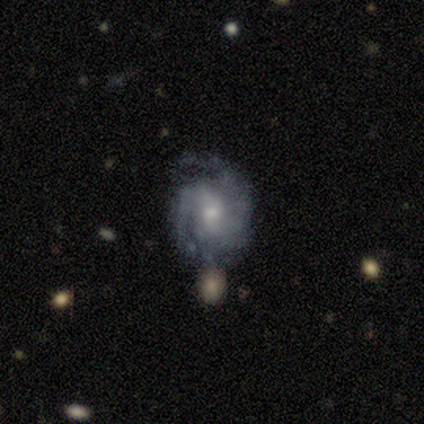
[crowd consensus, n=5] Smooth or featured?
  - featured or disk: 100% *
  - smooth: 0%
  - star or artifact: 0%
Edge-on disk?
  - no: 100% *
  - yes: 0%
Bar?
  - no: 80% *
  - weak: 20%
  - strong: 0%
Spiral arms?
  - yes: 100% *
  - no: 0%
Spiral winding?
  - tight: 60% *
  - medium: 20%
  - loose: 20%
Spiral arm count?
  - 2: 40% * (tied)
  - can't tell: 40% * (tied)
  - 3: 20%
  - 1: 0%
  - 4: 0%
  - more than 4: 0%
Bulge size?
  - moderate: 60% *
  - small: 40%
  - dominant: 0%
  - large: 0%
  - none: 0%
Merging?
  - none: 80% *
  - merger: 20%
  - minor disturbance: 0%
  - major disturbance: 0%